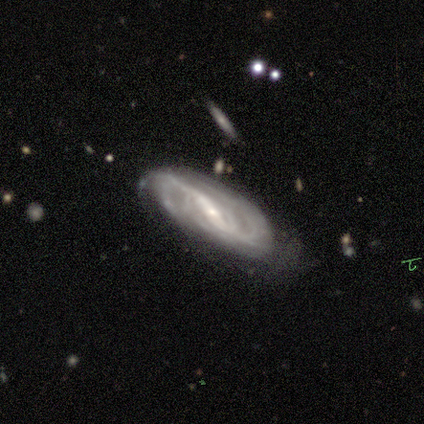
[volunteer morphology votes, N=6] This appears to be a featured or disk galaxy (100%) with a strong bar (83%), 2 (50%, tied with can't tell) tight (50%) spiral arms (100%) and a moderate central bulge (67%). Merging: minor disturbance (50%).